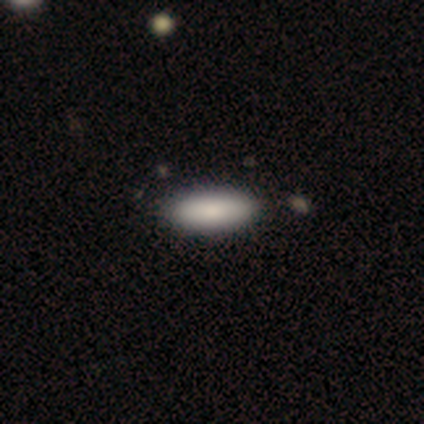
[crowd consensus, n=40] Smooth or featured? 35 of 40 (88%) said smooth. How rounded? 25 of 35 (71%) said in between. Merging? 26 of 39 (67%) said none.